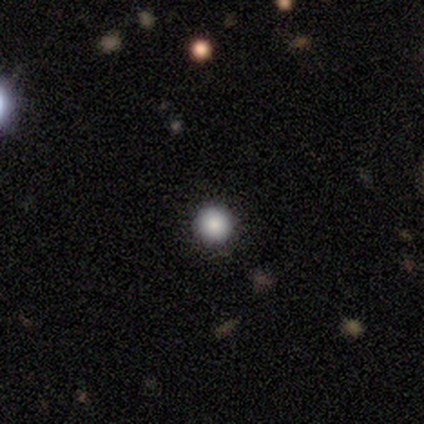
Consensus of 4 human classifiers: Overall: smooth (50%, tied with star or artifact). How rounded: round (100%). Merging: none (100%).